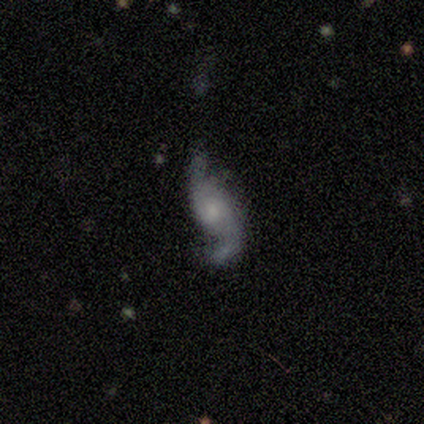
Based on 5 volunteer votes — featured or disk 80%, smooth 20%, star or artifact 0%. Down the decision tree: edge-on disk — no (100%); bar — strong (50%, tied with no); spiral arms — yes (100%); spiral arm count — 2 (75%); spiral winding — medium (50%, tied with loose); bulge size — moderate (50%); merging — minor disturbance (60%).